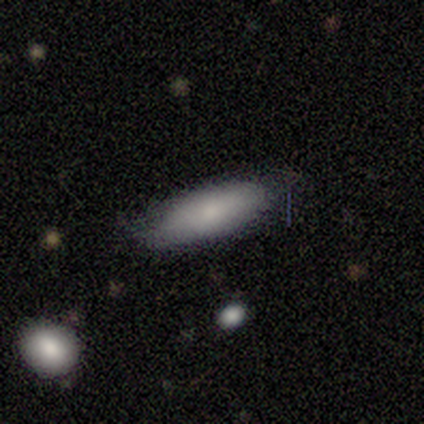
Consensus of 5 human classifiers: A smooth galaxy with no disk features (100%) that is in between round and cigar-shaped (60%).

Vote fractions:
- Smooth or featured? smooth: 100% / featured or disk: 0% / star or artifact: 0%
- How rounded? in between: 60% / cigar-shaped: 40% / round: 0%
- Merging? none: 80% / minor disturbance: 20% / major disturbance: 0% / merger: 0%